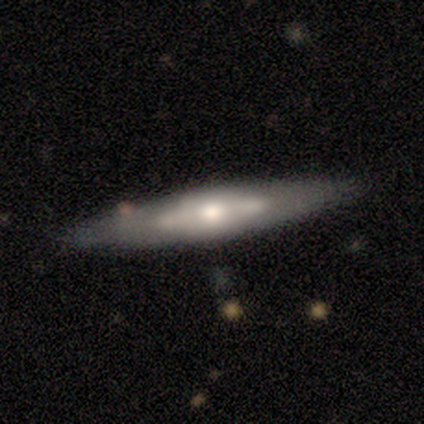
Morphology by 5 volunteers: smooth_or_featured: featured or disk (p=0.80) [alt: smooth p=0.20]
disk_edge_on: yes (p=1.00)
edge_on_bulge: rounded (p=1.00)
merging: none (p=0.60) [alt: minor disturbance p=0.20]